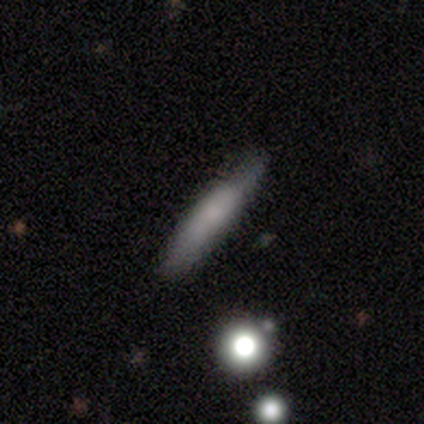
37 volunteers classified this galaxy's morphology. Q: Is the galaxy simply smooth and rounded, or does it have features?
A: smooth — 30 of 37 (81%).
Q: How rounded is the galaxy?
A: cigar-shaped — 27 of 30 (90%).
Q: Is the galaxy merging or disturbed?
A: none — 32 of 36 (89%).